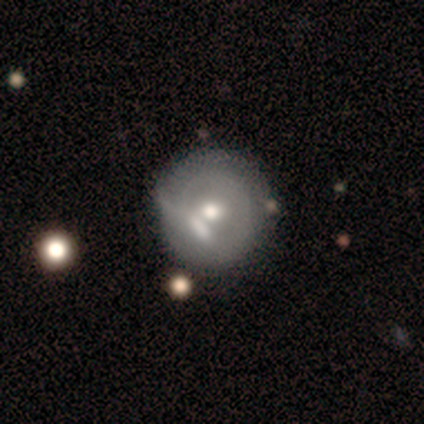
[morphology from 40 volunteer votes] Smooth or featured? 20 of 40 (50%) said smooth. How rounded? 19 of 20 (95%) said round. Merging? 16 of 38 (42%) said none.